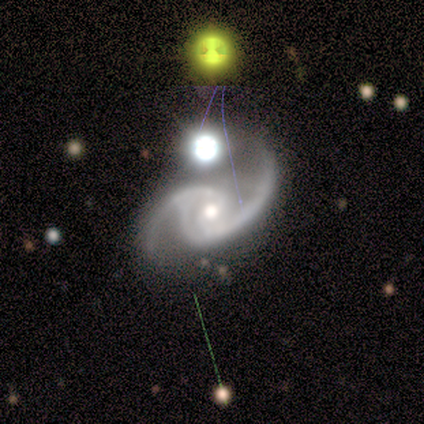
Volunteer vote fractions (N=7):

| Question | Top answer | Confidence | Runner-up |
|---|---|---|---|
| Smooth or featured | featured or disk | 57% | star or artifact (43%) |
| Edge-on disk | no | 100% | — |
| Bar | weak | 50% | tied: no (50%) |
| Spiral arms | yes | 100% | — |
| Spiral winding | medium | 50% | tied: loose (50%) |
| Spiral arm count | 2 | 100% | — |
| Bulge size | moderate | 75% | small (25%) |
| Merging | minor disturbance | 50% | none (25%) |